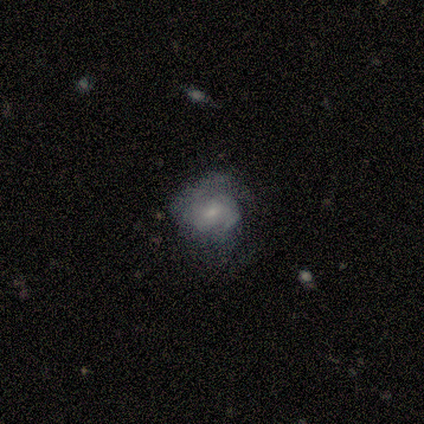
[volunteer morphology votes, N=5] type=featured or disk (60%); edge-on=no (100%); bar=no (67%); spiral arms=yes (67%); winding=medium (50%, tied with loose); arm count=can't tell (100%); bulge=small (67%); merging=none (40%, tied with minor disturbance).